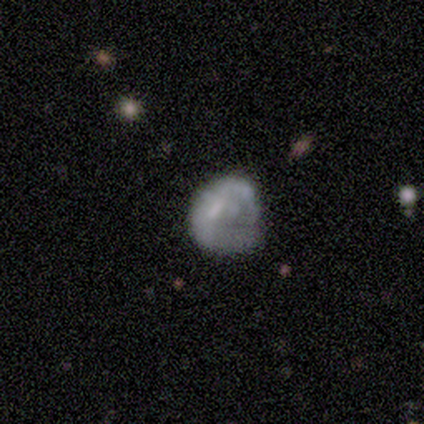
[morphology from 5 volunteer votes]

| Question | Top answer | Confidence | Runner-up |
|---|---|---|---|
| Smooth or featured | featured or disk | 60% | smooth (20%) |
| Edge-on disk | no | 100% | — |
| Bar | no | 100% | — |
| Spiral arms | no | 67% | yes (33%) |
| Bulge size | moderate | 33% | tied: small (33%), none (33%) |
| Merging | major disturbance | 50% | none (25%) |